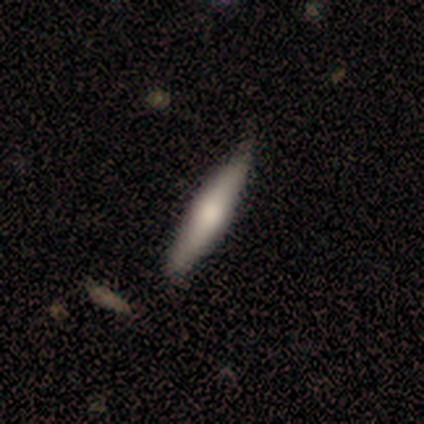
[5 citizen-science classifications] smooth-or-featured: smooth: 60% | featured or disk: 40% | star or artifact: 0%
  how-rounded: cigar-shaped: 67% | in between: 33% | round: 0%
  merging: none: 80% | minor disturbance: 20% | major disturbance: 0% | merger: 0%